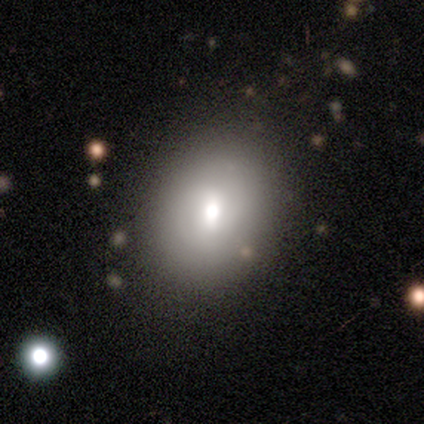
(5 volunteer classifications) Overall: featured or disk (60%; smooth 40%). Edge-on disk: no (100%). Bar: no (67%; weak 33%). Spiral arms: no (67%; yes 33%). Bulge size: moderate (100%). Merging: none (80%).